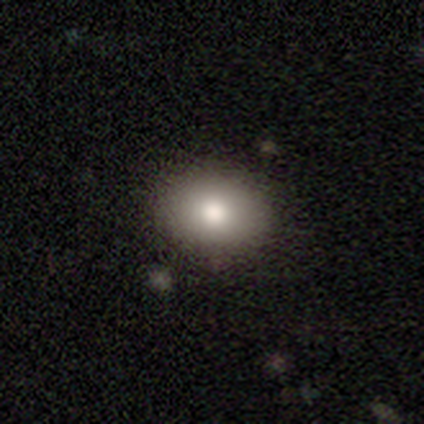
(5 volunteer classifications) Volunteers were most divided on "smooth or featured": smooth: 80%, featured or disk: 20%, star or artifact: 0%. More confident: how rounded — in between (100%); merging — none (100%).